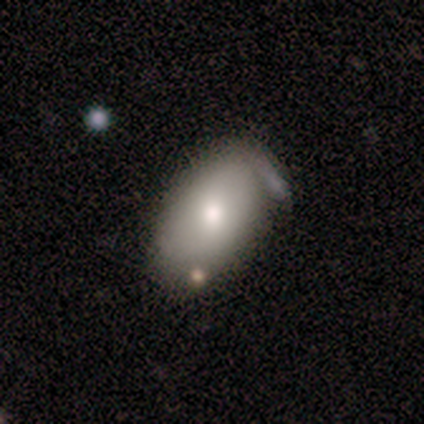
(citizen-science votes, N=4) Morphology: type=smooth (100%); roundness=in between (100%); merging=none (25%, tied with minor disturbance, major disturbance and merger).